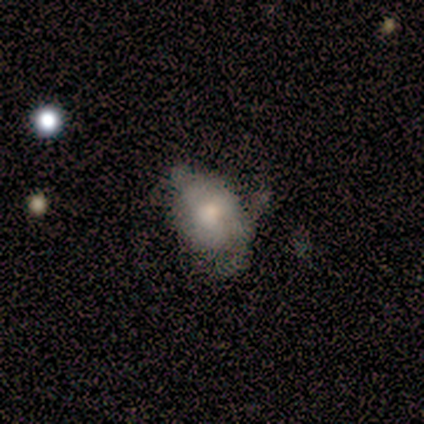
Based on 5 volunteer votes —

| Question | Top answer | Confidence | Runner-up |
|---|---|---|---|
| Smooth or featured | smooth | 80% | featured or disk (20%) |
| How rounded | in between | 100% | — |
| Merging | minor disturbance | 80% | major disturbance (20%) |